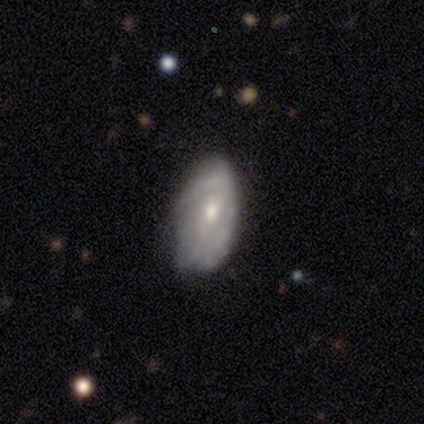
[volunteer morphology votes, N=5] A featured or disk galaxy (60%) with a weak bar (67%), no spiral arms (67%) and a moderate central bulge (67%). Merging: none (80%).